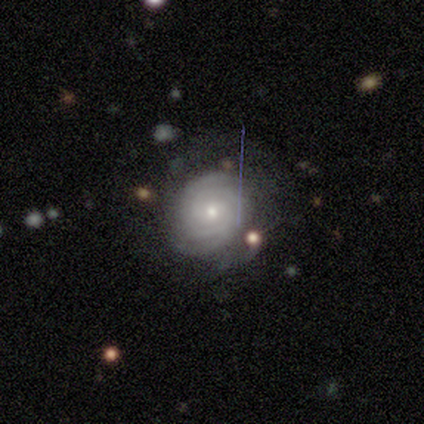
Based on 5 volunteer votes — This is likely a featured or disk galaxy (60%). It is clearly not viewed edge-on (100%). Bar: likely no (67%). Spiral arm pattern: likely yes (67%). Spiral arm count: possibly 2 (50%, tied with can't tell). Spiral winding: clearly tight (100%). Central bulge: clearly small (100%). Merging: clearly none (100%).